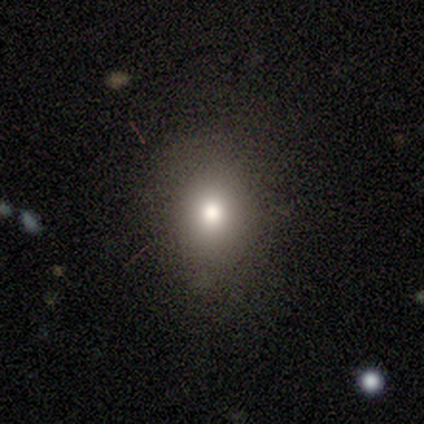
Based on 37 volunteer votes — smooth_or_featured: smooth (p=0.84) [alt: star or artifact p=0.11]
how_rounded: round (p=0.68) [alt: in between p=0.32]
merging: none (p=0.82) [alt: minor disturbance p=0.12]